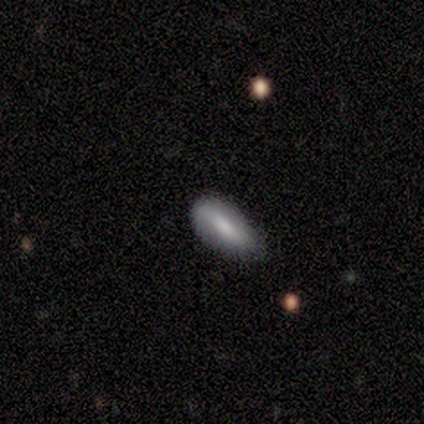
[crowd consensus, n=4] Smooth or featured? 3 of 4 (75%) said smooth. How rounded? 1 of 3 (33%, tied with in between and cigar-shaped) said round. Merging? 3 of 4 (75%) said none.